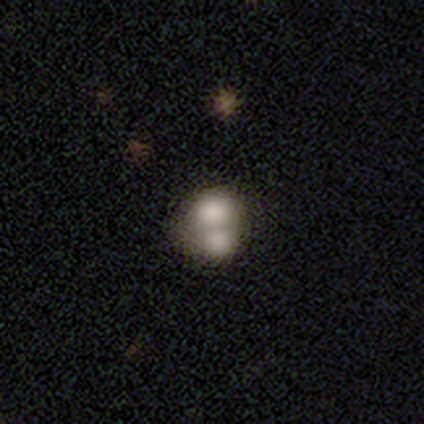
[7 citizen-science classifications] A smooth galaxy with no disk features (57%) that is round (50%, tied with in between). Merging: merger (86%).